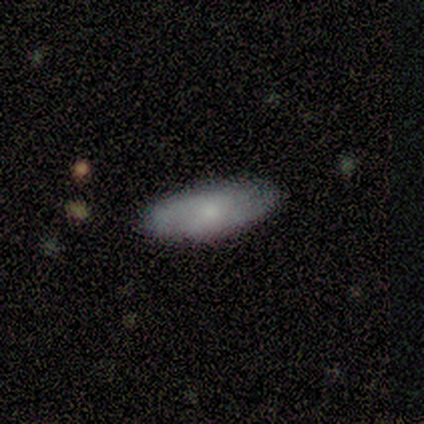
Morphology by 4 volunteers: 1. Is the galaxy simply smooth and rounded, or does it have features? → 75% smooth, 25% featured or disk, 0% star or artifact.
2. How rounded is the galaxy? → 67% cigar-shaped, 33% in between, 0% round.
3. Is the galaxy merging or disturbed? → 100% none, 0% minor disturbance, 0% major disturbance, 0% merger.